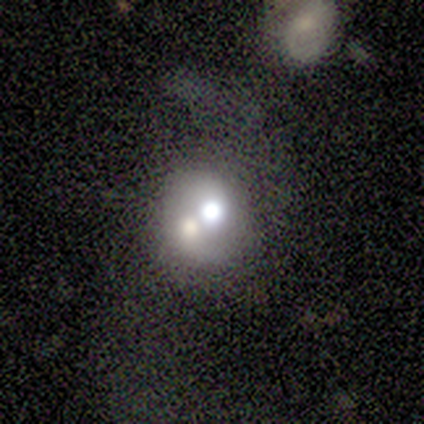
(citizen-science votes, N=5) smooth_or_featured: smooth (p=0.60) [alt: featured or disk p=0.40]
how_rounded: round (p=0.67) [alt: in between p=0.33]
merging: merger (p=0.60) [alt: major disturbance p=0.40]